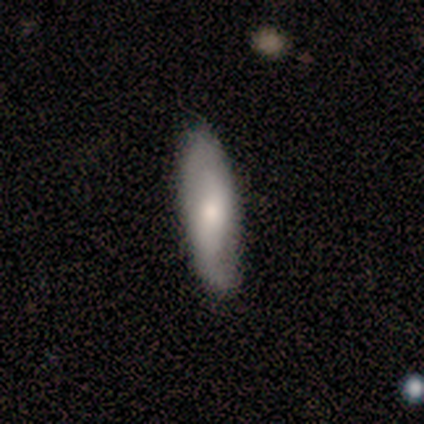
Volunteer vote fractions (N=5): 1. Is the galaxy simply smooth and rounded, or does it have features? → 80% smooth, 20% featured or disk, 0% star or artifact.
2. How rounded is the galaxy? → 100% in between, 0% round, 0% cigar-shaped.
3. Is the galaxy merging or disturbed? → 80% none, 20% minor disturbance, 0% major disturbance, 0% merger.